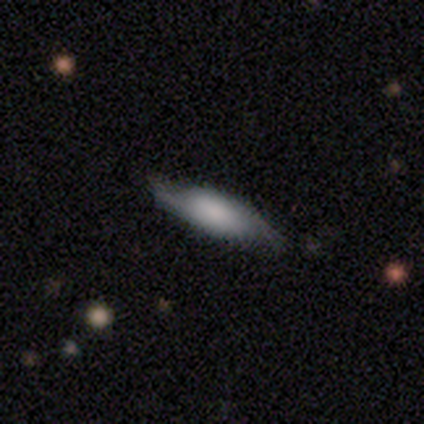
Smooth or featured? 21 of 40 (52%) said featured or disk. Edge-on disk? 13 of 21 (62%) said no. Bar? 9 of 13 (69%) said no. Spiral arms? 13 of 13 (100%) said yes. Spiral winding? 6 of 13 (46%) said loose. Spiral arm count? 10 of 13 (77%) said 2. Bulge size? 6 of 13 (46%) said moderate. Merging? 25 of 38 (66%) said none.